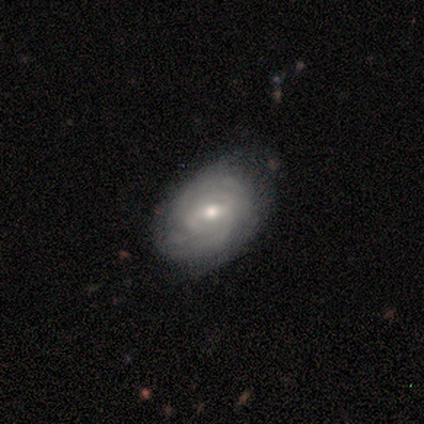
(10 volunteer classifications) Smooth or featured? 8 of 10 (80%) said featured or disk. Edge-on disk? 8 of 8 (100%) said no. Bar? 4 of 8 (50%) said no. Spiral arms? 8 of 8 (100%) said yes. Spiral winding? 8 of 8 (100%) said tight. Spiral arm count? 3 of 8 (38%) said 2. Bulge size? 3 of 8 (38%, tied with small) said moderate. Merging? 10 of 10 (100%) said none.